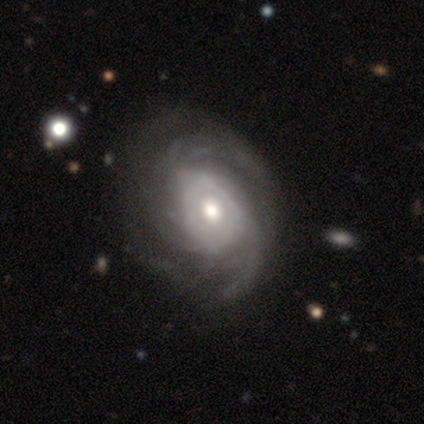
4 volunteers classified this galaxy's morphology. This appears to be a smooth galaxy with no disk features (50%, tied with featured or disk) that is in between round and cigar-shaped (100%). Merging: none (50%, tied with major disturbance).